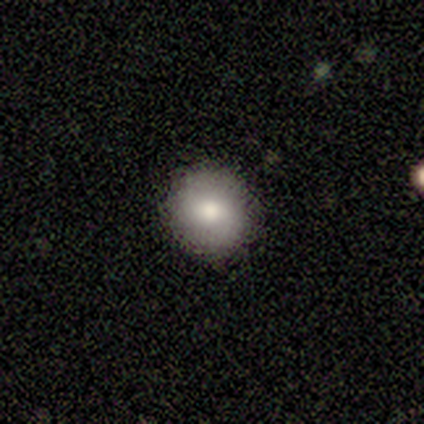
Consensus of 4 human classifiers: Smooth or featured?
  - smooth: 75% *
  - featured or disk: 25%
  - star or artifact: 0%
How rounded?
  - round: 100% *
  - in between: 0%
  - cigar-shaped: 0%
Merging?
  - none: 100% *
  - minor disturbance: 0%
  - major disturbance: 0%
  - merger: 0%